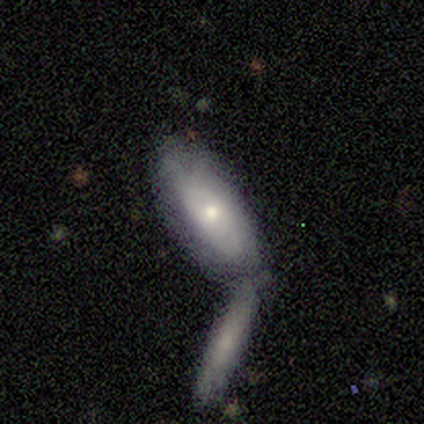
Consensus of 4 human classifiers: This appears to be a smooth galaxy with no disk features (50%, tied with featured or disk) that is in between round and cigar-shaped (50%, tied with cigar-shaped). Merging: none (50%, tied with merger).